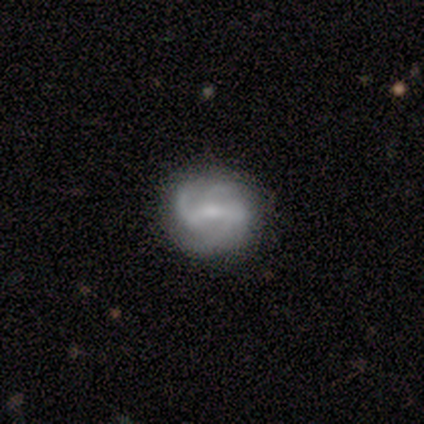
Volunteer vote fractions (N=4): Smooth or featured: featured or disk — 75% (smooth — 25%)
Edge-on disk: no — 100%
Bar: weak — 67% (strong — 33%)
Spiral arms: yes — 100%
Spiral winding: tight — 67% (medium — 33%)
Spiral arm count: 2 — 67% (3 — 33%)
Bulge size: none — 67% (small — 33%)
Merging: none — 75% (minor disturbance — 25%)